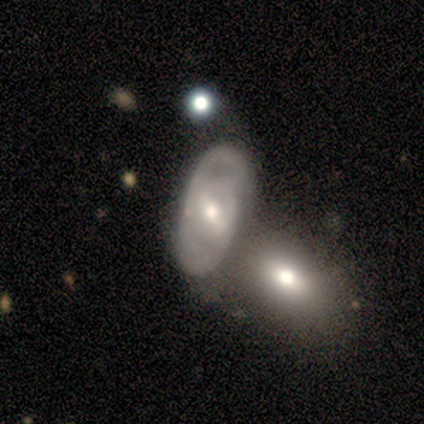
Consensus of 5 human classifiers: Smooth or featured: featured or disk — 100%
Edge-on disk: no — 100%
Bar: strong — 60% (weak — 20%)
Spiral arms: yes — 80% (no — 20%)
Spiral winding: medium — 75% (tight — 25%)
Spiral arm count: 2 — 75% (1 — 25%)
Bulge size: moderate — 40% (tied with small — 40%)
Merging: minor disturbance — 40% (tied with merger — 40%)